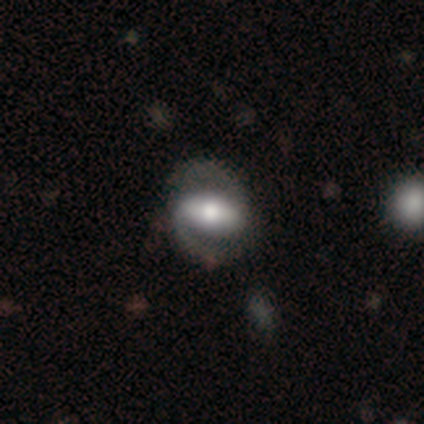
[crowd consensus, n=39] featured or disk 72%, smooth 26%, star or artifact 3%. Down the decision tree: edge-on disk — no (100%); bar — strong (71%); spiral arms — yes (93%); spiral arm count — 2 (100%); spiral winding — medium (38%); bulge size — moderate (61%); merging — none (58%).